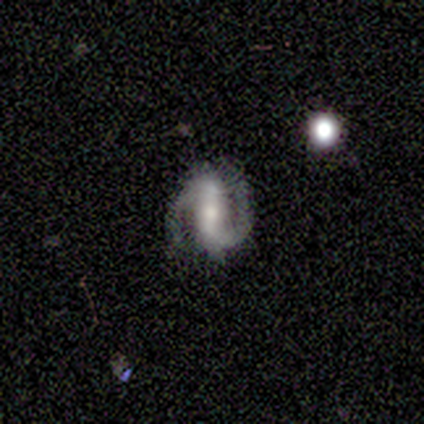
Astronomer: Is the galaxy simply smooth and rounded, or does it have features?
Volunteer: featured or disk — 100%.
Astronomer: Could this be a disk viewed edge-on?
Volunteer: no — 100%.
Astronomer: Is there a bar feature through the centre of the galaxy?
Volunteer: strong — 73%.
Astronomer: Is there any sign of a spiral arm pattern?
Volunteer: yes — 100%.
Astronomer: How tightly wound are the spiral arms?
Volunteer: medium — 64%.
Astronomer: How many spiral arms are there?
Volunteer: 2 — 91%.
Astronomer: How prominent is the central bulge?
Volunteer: moderate — 45%, tied with small at 45%.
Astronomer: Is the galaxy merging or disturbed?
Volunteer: none — 91%.